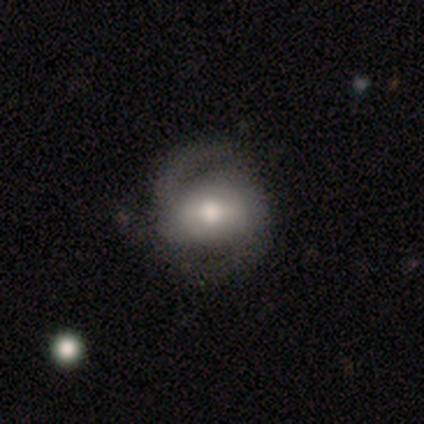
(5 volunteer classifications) smooth_or_featured: featured or disk (p=0.80) [alt: smooth p=0.20]
disk_edge_on: no (p=1.00)
bar: strong (p=0.50) [alt: weak p=0.25]
has_spiral_arms: yes (p=0.75) [alt: no p=0.25]
spiral_winding: medium (p=0.67) [alt: tight p=0.33]
spiral_arm_count: 2 (p=1.00)
bulge_size: moderate (p=0.50) [alt: dominant p=0.25]
merging: none (p=0.40) [tied with: major disturbance p=0.40]